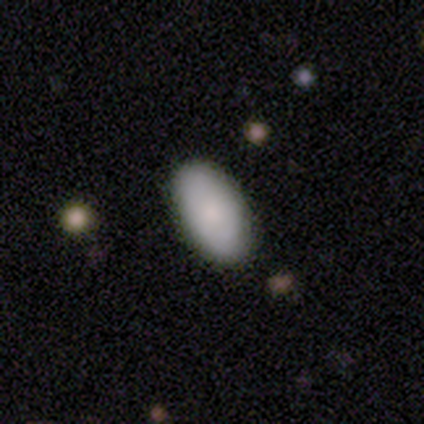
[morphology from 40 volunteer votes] smooth_or_featured: smooth (p=0.82) [alt: featured or disk p=0.12]
how_rounded: in between (p=0.97) [alt: cigar-shaped p=0.03]
merging: none (p=0.89) [alt: minor disturbance p=0.08]